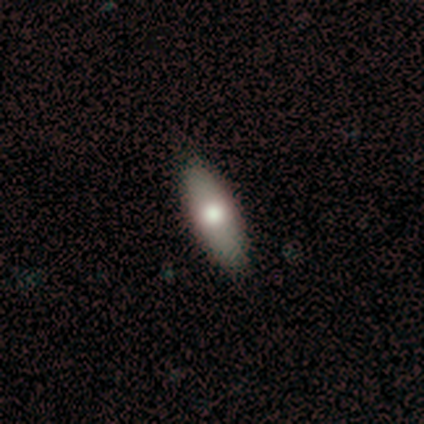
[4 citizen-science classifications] Smooth or featured? 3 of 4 (75%) said smooth. How rounded? 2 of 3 (67%) said cigar-shaped. Merging? 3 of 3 (100%) said none.